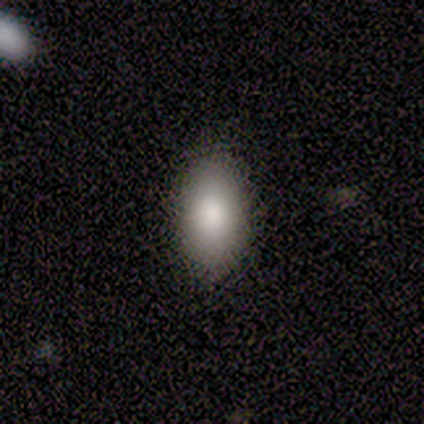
Smooth or featured?
  - smooth: 100% *
  - featured or disk: 0%
  - star or artifact: 0%
How rounded?
  - in between: 100% *
  - round: 0%
  - cigar-shaped: 0%
Merging?
  - none: 80% *
  - minor disturbance: 20%
  - major disturbance: 0%
  - merger: 0%